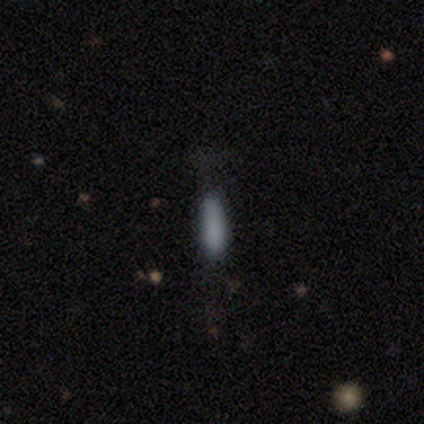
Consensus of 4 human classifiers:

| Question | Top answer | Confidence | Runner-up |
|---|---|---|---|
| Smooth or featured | smooth | 100% | — |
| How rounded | cigar-shaped | 100% | — |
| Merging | none | 50% | tied: minor disturbance (50%) |